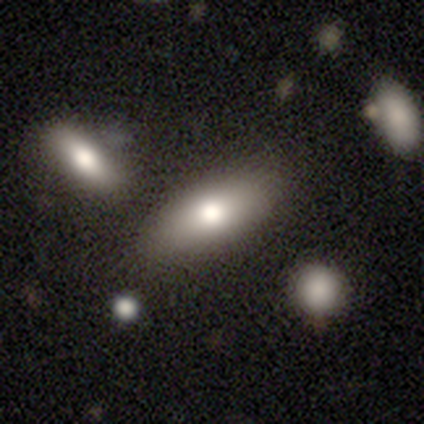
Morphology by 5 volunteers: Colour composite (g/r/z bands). It shows a smooth galaxy with no disk features (100%) that is in between round and cigar-shaped (100%). Merging: none (100%).